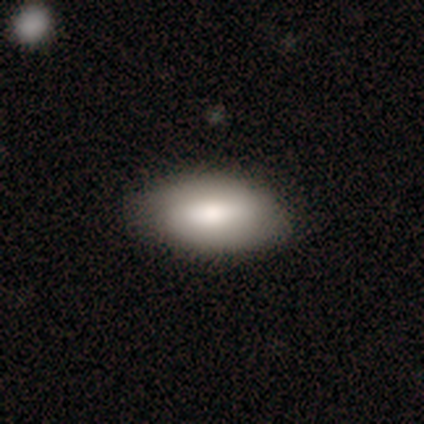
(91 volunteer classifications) smooth-or-featured: smooth: 73% | featured or disk: 21% | star or artifact: 7%
  how-rounded: in between: 94% | round: 3% | cigar-shaped: 3%
  merging: none: 84% | minor disturbance: 14% | major disturbance: 2% | merger: 0%